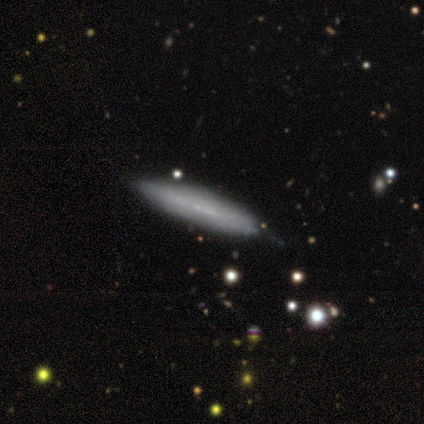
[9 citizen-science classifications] smooth 56%, featured or disk 44%, star or artifact 0%. Down the decision tree: how rounded — cigar-shaped (100%); merging — none (100%).